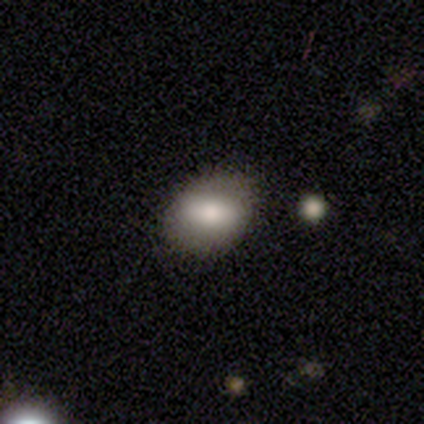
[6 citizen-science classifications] A smooth galaxy with no disk features (100%) that is in between round and cigar-shaped (83%).

Vote fractions:
- Smooth or featured? smooth: 100% / featured or disk: 0% / star or artifact: 0%
- How rounded? in between: 83% / round: 17% / cigar-shaped: 0%
- Merging? none: 83% / minor disturbance: 17% / major disturbance: 0% / merger: 0%